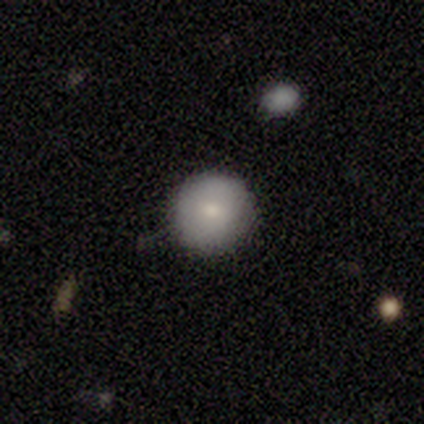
This is clearly a smooth galaxy (83%). How rounded: clearly round (100%). Merging: clearly none (100%).